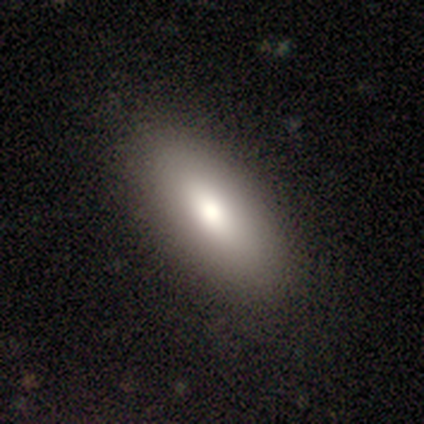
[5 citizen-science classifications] Smooth or featured: smooth — 80% (featured or disk — 20%)
How rounded: in between — 50% (tied with cigar-shaped — 50%)
Merging: none — 80% (minor disturbance — 20%)